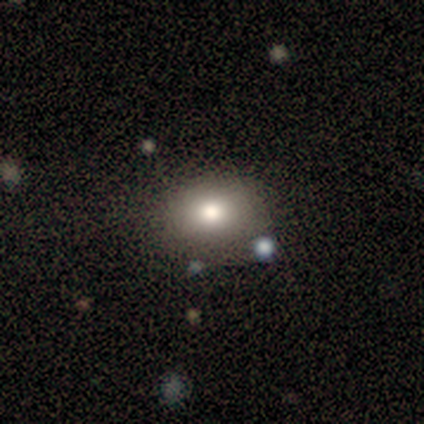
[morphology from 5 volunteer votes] Volunteers were most divided on "smooth or featured": smooth: 60%, featured or disk: 40%, star or artifact: 0%. More confident: how rounded — in between (67%); merging — none (60%).